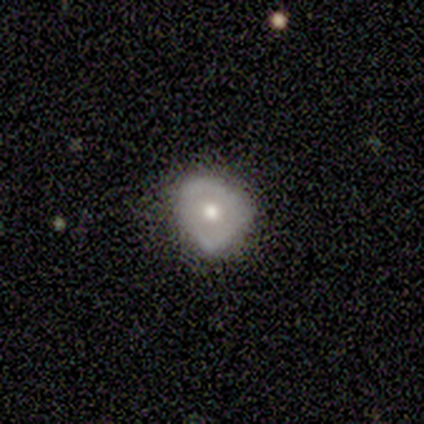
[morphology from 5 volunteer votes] Smooth or featured: featured or disk — 60% (smooth — 40%)
Edge-on disk: no — 67% (yes — 33%)
Bar: no — 100%
Spiral arms: no — 100%
Bulge size: moderate — 50% (tied with small — 50%)
Merging: minor disturbance — 60% (none — 40%)